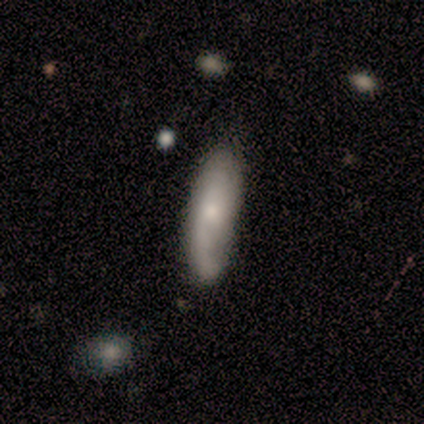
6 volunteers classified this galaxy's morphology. Q: Smooth or featured?
A: smooth (83%); runner-up: featured or disk (17%)
Q: How rounded?
A: in between (60%); runner-up: cigar-shaped (40%)
Q: Merging?
A: none (83%); runner-up: minor disturbance (17%)